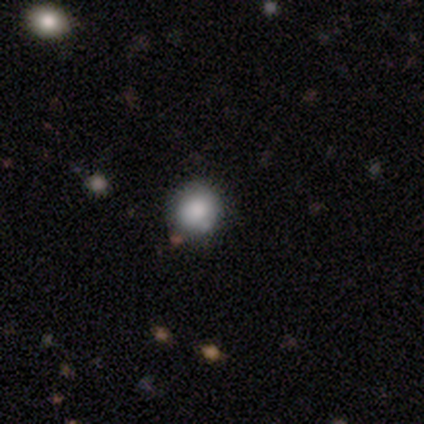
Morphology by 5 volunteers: smooth-or-featured: smooth: 80% | featured or disk: 20% | star or artifact: 0%
  how-rounded: round: 100% | in between: 0% | cigar-shaped: 0%
  merging: none: 60% | minor disturbance: 20% | merger: 20% | major disturbance: 0%